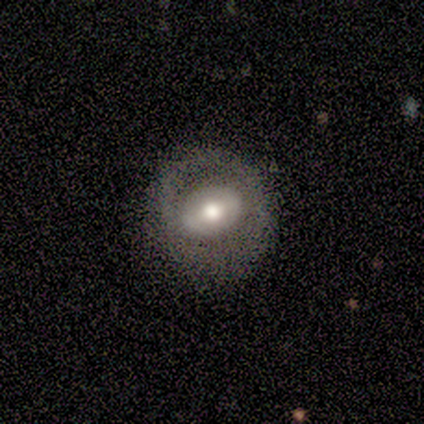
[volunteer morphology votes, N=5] Smooth or featured? featured or disk (60%)
Edge-on disk? no (67%)
Bar? weak (100%)
Spiral arms? no (100%)
Bulge size? moderate (100%)
Merging? none (80%)